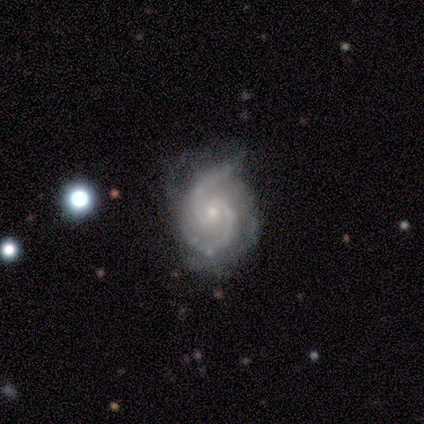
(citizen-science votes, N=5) A featured or disk galaxy (80%) with no bar (100%), 2 (75%) tight (75%) spiral arms (100%) and a small central bulge (75%).

Vote fractions:
- Smooth or featured? featured or disk: 80% / smooth: 20% / star or artifact: 0%
- Edge-on disk? no: 100% / yes: 0%
- Bar? no: 100% / strong: 0% / weak: 0%
- Spiral arms? yes: 100% / no: 0%
- Spiral winding? tight: 75% / medium: 25% / loose: 0%
- Spiral arm count? 2: 75% / can't tell: 25% / 1: 0% / 3: 0% / 4: 0% / more than 4: 0%
- Bulge size? small: 75% / moderate: 25% / dominant: 0% / large: 0% / none: 0%
- Merging? minor disturbance: 80% / none: 20% / major disturbance: 0% / merger: 0%